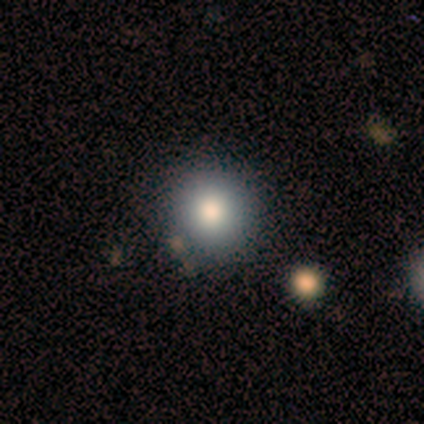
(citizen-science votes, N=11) A smooth galaxy with no disk features (64%) that is round (86%). Merging: none (100%).